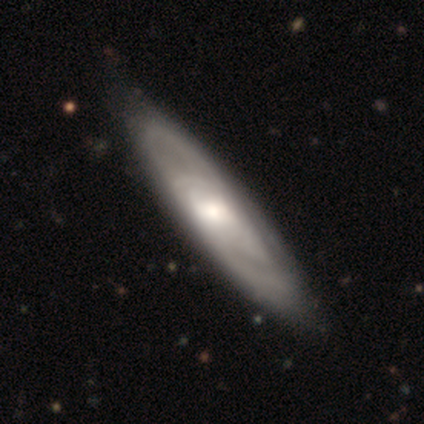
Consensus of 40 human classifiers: Smooth or featured? 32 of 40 (80%) said featured or disk. Edge-on disk? 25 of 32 (78%) said no. Bar? 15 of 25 (60%) said no. Spiral arms? 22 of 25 (88%) said yes. Spiral winding? 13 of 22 (59%) said tight. Spiral arm count? 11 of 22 (50%) said 2. Bulge size? 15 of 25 (60%) said moderate. Merging? 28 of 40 (70%) said none.